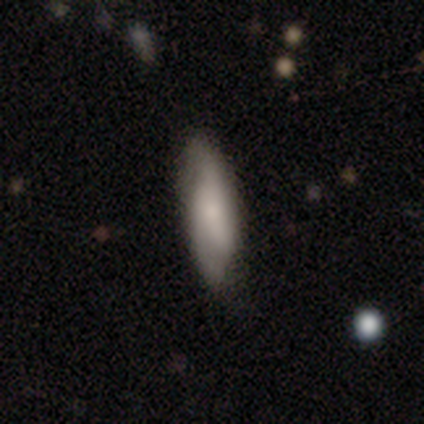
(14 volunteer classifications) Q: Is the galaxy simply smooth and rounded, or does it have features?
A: featured or disk — 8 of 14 (57%).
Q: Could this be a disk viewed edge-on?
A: no — 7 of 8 (88%).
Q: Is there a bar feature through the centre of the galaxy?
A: weak — 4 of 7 (57%).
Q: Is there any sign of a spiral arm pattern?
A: yes — 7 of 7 (100%).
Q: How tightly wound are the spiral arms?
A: medium — 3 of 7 (43%).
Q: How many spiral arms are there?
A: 2 — 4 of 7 (57%).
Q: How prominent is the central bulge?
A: small — 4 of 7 (57%).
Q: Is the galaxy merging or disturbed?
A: none — 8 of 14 (57%).